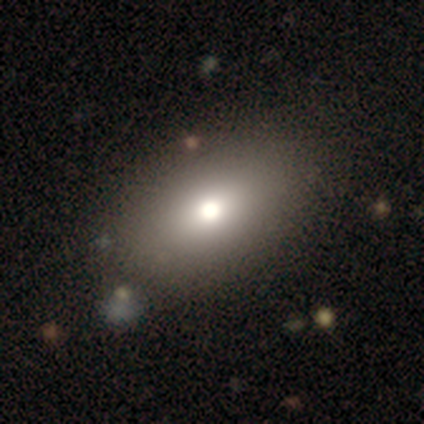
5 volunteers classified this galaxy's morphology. Smooth or featured?
  - smooth: 60% *
  - star or artifact: 40%
  - featured or disk: 0%
How rounded?
  - in between: 67% *
  - round: 33%
  - cigar-shaped: 0%
Merging?
  - none: 100% *
  - minor disturbance: 0%
  - major disturbance: 0%
  - merger: 0%